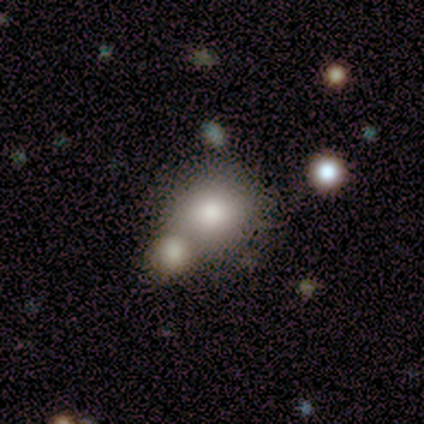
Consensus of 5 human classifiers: smooth-or-featured: smooth: 60% | featured or disk: 20% | star or artifact: 20%
  how-rounded: in between: 67% | round: 33% | cigar-shaped: 0%
  merging: merger: 100% | none: 0% | minor disturbance: 0% | major disturbance: 0%